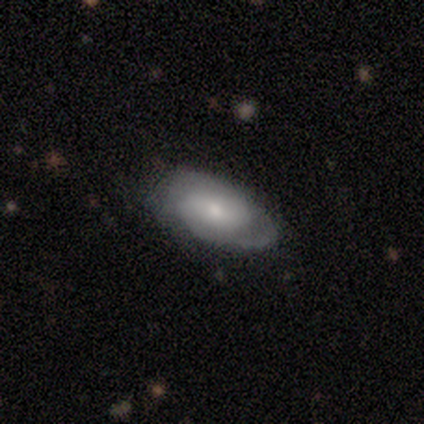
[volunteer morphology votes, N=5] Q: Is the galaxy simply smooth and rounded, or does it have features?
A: featured or disk — 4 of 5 (80%).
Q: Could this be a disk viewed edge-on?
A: no — 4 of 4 (100%).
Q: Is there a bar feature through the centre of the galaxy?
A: strong — 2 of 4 (50%).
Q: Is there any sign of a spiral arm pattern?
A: yes — 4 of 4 (100%).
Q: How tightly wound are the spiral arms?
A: tight — 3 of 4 (75%).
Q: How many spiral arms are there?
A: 2 — 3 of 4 (75%).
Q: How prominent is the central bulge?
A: moderate — 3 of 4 (75%).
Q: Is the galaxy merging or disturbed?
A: none — 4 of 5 (80%).